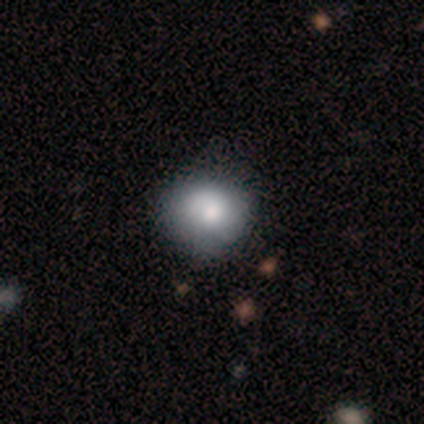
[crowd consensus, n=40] This appears to be a smooth galaxy with no disk features (70%) that is round (82%). Merging: none (54%).